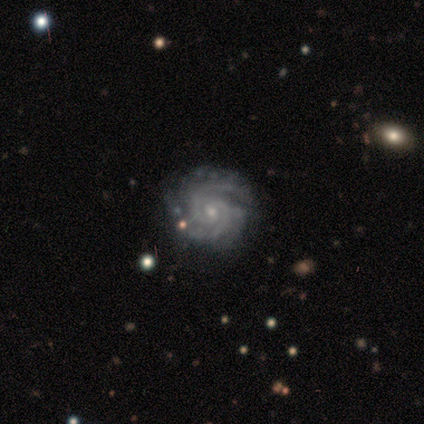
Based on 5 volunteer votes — Smooth or featured? featured or disk (100%)
Edge-on disk? no (100%)
Bar? no (80%)
Spiral arms? yes (100%)
Spiral winding? tight (80%)
Spiral arm count? 2 (60%)
Bulge size? small (100%)
Merging? none (80%)